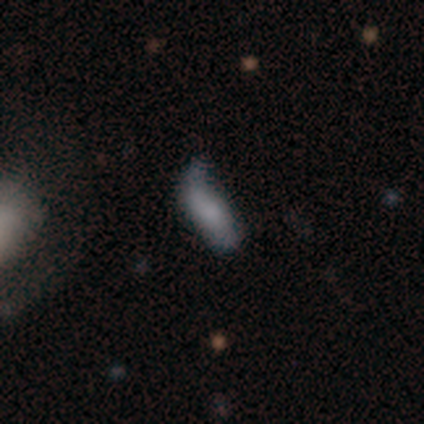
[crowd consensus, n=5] Smooth or featured: smooth — 40% (tied with featured or disk — 40%)
How rounded: in between — 100%
Merging: minor disturbance — 75% (merger — 25%)